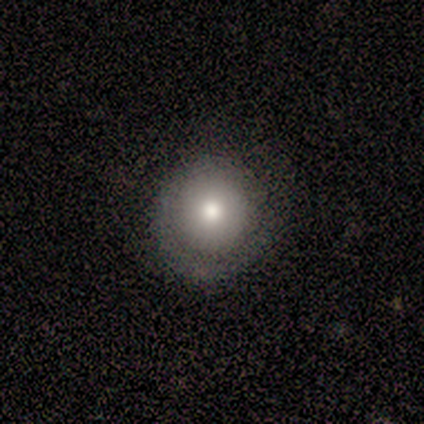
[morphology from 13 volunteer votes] Overall: smooth (77%). How rounded: round (90%). Merging: none (58%; minor disturbance 33%).